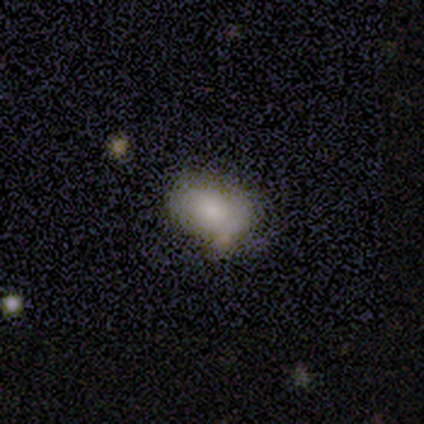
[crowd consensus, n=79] Smooth or featured?
  - smooth: 80% *
  - featured or disk: 16%
  - star or artifact: 4%
How rounded?
  - in between: 87% *
  - round: 13%
  - cigar-shaped: 0%
Merging?
  - none: 26% *
  - minor disturbance: 16%
  - merger: 11%
  - major disturbance: 3%